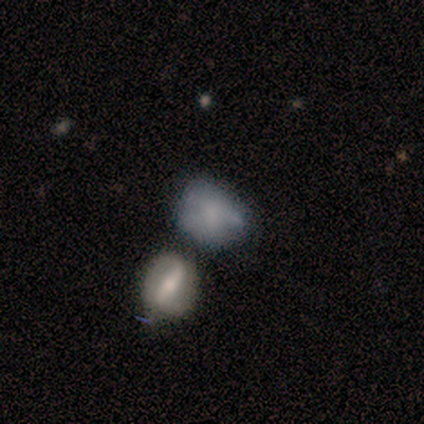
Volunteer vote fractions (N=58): smooth-or-featured: smooth: 59% | featured or disk: 33% | star or artifact: 9%
  how-rounded: in between: 62% | round: 38% | cigar-shaped: 0%
  merging: none: 38% | minor disturbance: 30% | merger: 23% | major disturbance: 9%